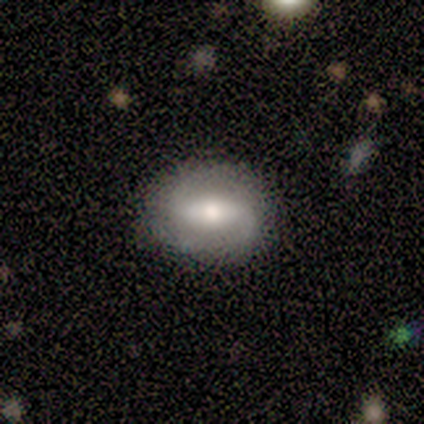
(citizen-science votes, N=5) A smooth galaxy with no disk features (60%) that is in between round and cigar-shaped (67%).

Vote fractions:
- Smooth or featured? smooth: 60% / featured or disk: 40% / star or artifact: 0%
- How rounded? in between: 67% / round: 33% / cigar-shaped: 0%
- Merging? none: 60% / minor disturbance: 40% / major disturbance: 0% / merger: 0%